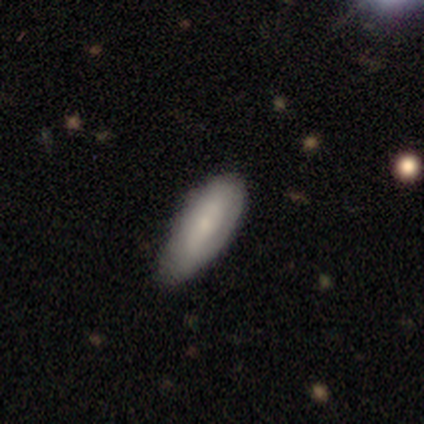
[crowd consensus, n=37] Smooth or featured? 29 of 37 (78%) said smooth. How rounded? 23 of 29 (79%) said in between. Merging? 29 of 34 (85%) said none.